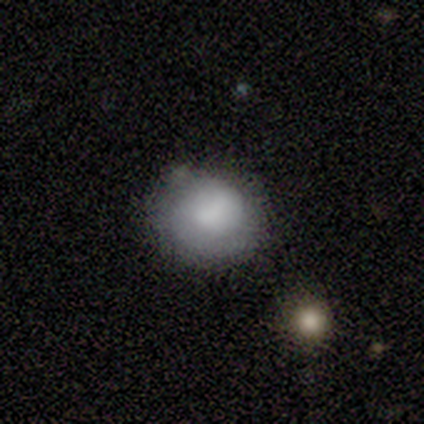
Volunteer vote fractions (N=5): Morphology: type=smooth (100%); roundness=round (80%); merging=minor disturbance (60%).